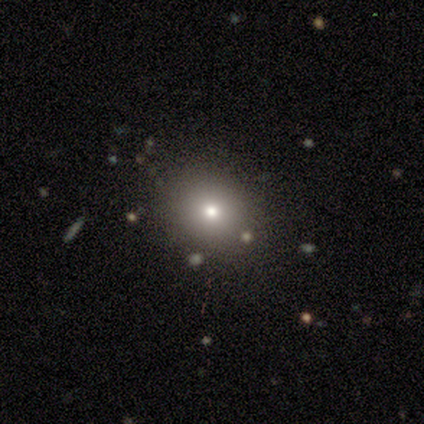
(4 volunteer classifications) This is possibly a featured or disk galaxy (50%). It is clearly not viewed edge-on (100%). Bar: clearly no (100%). Spiral arm pattern: clearly no (100%). Central bulge: possibly moderate (50%, tied with small). Merging: clearly none (100%).